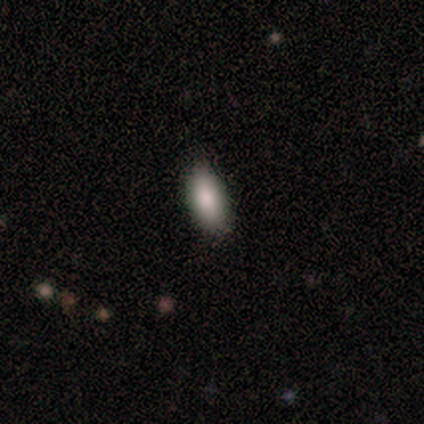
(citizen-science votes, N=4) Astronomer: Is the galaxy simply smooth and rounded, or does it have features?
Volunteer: smooth — 100%.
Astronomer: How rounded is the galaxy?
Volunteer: in between — 100%.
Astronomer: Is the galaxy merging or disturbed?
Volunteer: none — 100%.